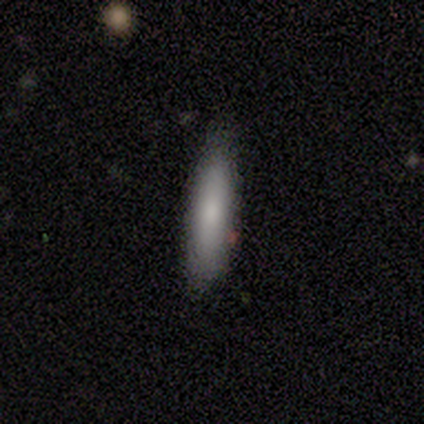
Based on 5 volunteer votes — smooth 80%, featured or disk 20%, star or artifact 0%. Down the decision tree: how rounded — cigar-shaped (100%); merging — none (60%).